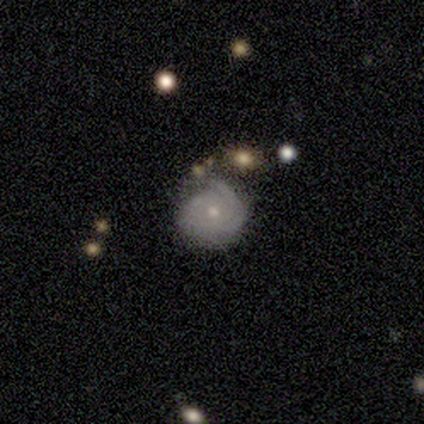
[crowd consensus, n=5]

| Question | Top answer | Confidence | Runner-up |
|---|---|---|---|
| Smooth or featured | smooth | 40% | tied: featured or disk (40%) |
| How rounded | round | 50% | tied: in between (50%) |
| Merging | minor disturbance | 50% | none (25%) |